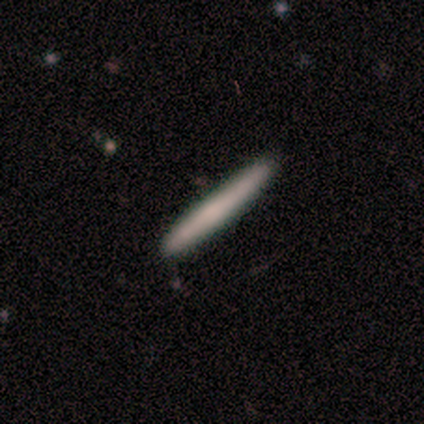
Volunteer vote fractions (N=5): Q: Smooth or featured?
A: smooth (80%); runner-up: star or artifact (20%)
Q: How rounded?
A: cigar-shaped (100%)
Q: Merging?
A: none (100%)